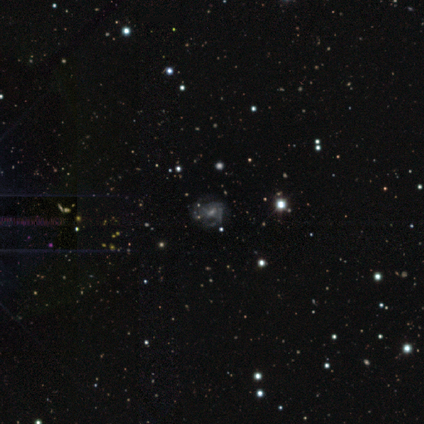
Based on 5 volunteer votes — Smooth or featured: featured or disk — 40% (tied with star or artifact — 40%)
Edge-on disk: no — 100%
Bar: no — 100%
Spiral arms: yes — 50% (tied with no — 50%)
Spiral winding: tight — 100%
Spiral arm count: 2 — 100%
Bulge size: moderate — 50% (tied with none — 50%)
Merging: none — 33% (tied with major disturbance — 33%; merger — 33%)